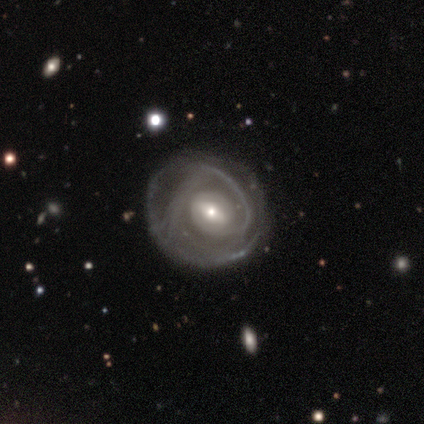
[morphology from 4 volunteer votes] smooth-or-featured: featured or disk: 75% | smooth: 25% | star or artifact: 0%
  disk-edge-on: no: 100% | yes: 0%
    bar: strong: 33% (tied) | weak: 33% (tied) | no: 33% (tied)
    has-spiral-arms: yes: 100% | no: 0%
      spiral-winding: tight: 100% | medium: 0% | loose: 0%
      spiral-arm-count: 3: 67% | 2: 33% | 1: 0% | 4: 0% | more than 4: 0% | can't tell: 0%
    bulge-size: moderate: 67% | small: 33% | dominant: 0% | large: 0% | none: 0%
  merging: minor disturbance: 50% | none: 25% | merger: 25% | major disturbance: 0%